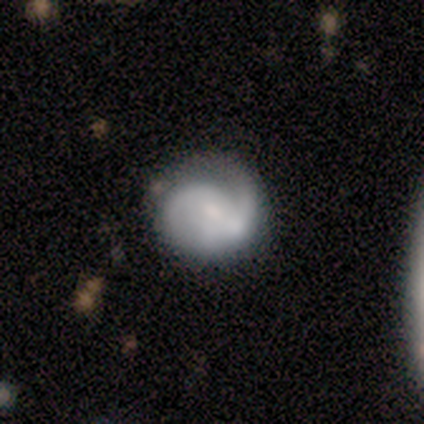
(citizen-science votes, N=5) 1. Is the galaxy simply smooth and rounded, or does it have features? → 60% featured or disk, 20% smooth, 20% star or artifact.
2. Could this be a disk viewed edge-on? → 100% no, 0% yes.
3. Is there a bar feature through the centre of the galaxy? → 100% weak, 0% strong, 0% no.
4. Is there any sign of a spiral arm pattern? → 67% yes, 33% no.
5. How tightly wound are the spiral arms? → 100% medium, 0% tight, 0% loose.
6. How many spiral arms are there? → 100% 2, 0% 1, 0% 3, 0% 4, 0% more than 4, 0% can't tell.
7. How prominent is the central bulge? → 67% moderate, 33% small, 0% dominant, 0% large, 0% none.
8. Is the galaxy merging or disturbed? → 50% none, 25% minor disturbance, 25% merger, 0% major disturbance.